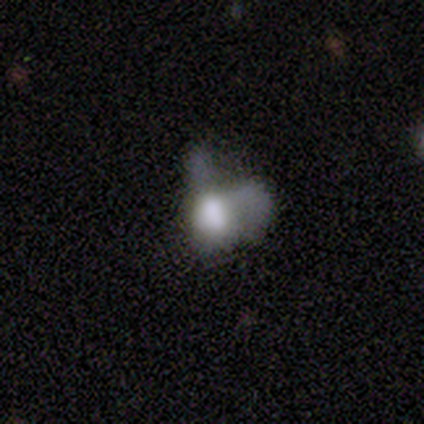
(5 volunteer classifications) Overall: featured or disk (60%; smooth 20%). Edge-on disk: no (100%). Bar: no (67%; weak 33%). Spiral arms: no (100%). Bulge size: none (67%; moderate 33%). Merging: major disturbance (75%).